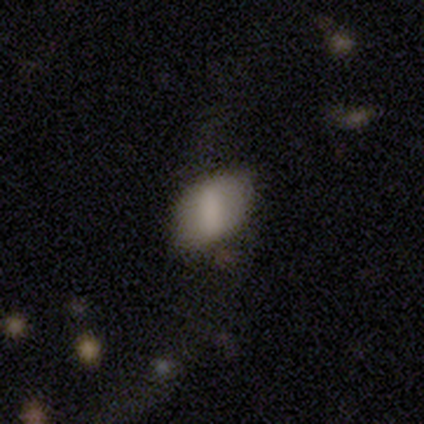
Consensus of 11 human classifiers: This appears to be a smooth galaxy with no disk features (82%) that is in between round and cigar-shaped (78%). Merging: none (64%).